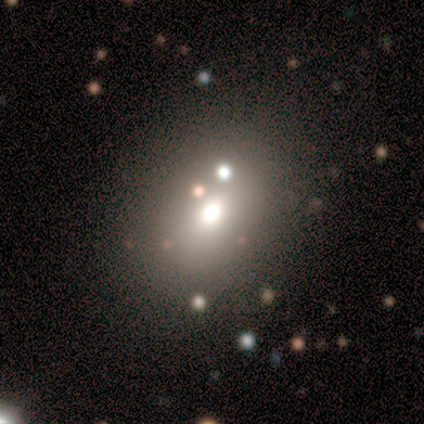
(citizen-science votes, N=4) smooth-or-featured: smooth: 75% | featured or disk: 25% | star or artifact: 0%
  how-rounded: in between: 100% | round: 0% | cigar-shaped: 0%
  merging: none: 50% (tied) | major disturbance: 50% (tied) | minor disturbance: 0% | merger: 0%